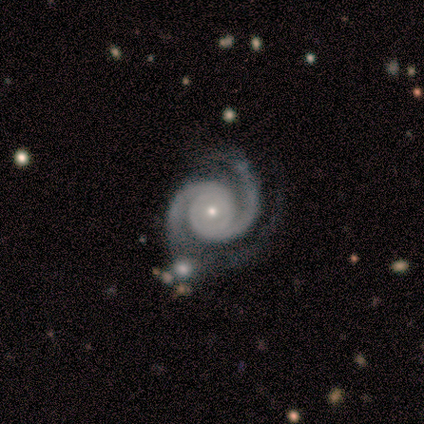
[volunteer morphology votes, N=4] Q: Smooth or featured?
A: featured or disk (100%)
Q: Edge-on disk?
A: no (100%)
Q: Bar?
A: no (75%); runner-up: weak (25%)
Q: Spiral arms?
A: yes (100%)
Q: Spiral winding?
A: tight (75%); runner-up: loose (25%)
Q: Spiral arm count?
A: 2 (100%)
Q: Bulge size?
A: moderate (50%); tied with: small (50%)
Q: Merging?
A: none (50%); tied with: major disturbance (50%)